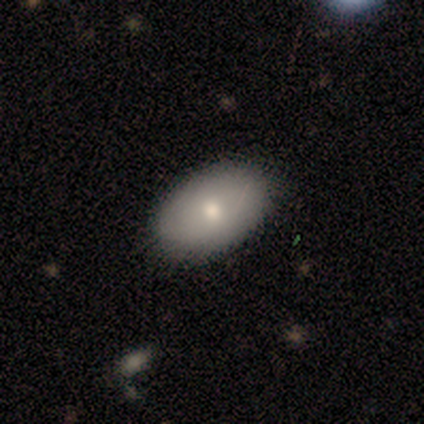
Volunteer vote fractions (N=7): This appears to be a smooth galaxy with no disk features (86%) that is in between round and cigar-shaped (83%). Merging: none (57%).